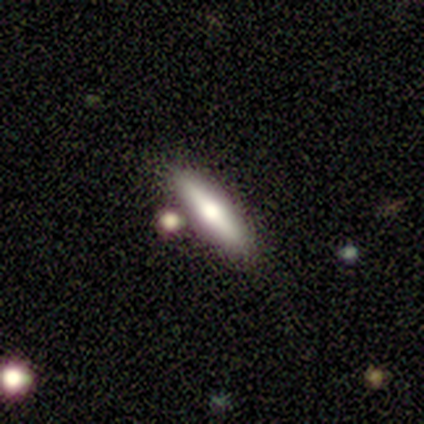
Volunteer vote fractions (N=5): Smooth or featured?
  - smooth: 60% *
  - featured or disk: 20%
  - star or artifact: 20%
How rounded?
  - cigar-shaped: 100% *
  - round: 0%
  - in between: 0%
Merging?
  - none: 75% *
  - minor disturbance: 25%
  - major disturbance: 0%
  - merger: 0%